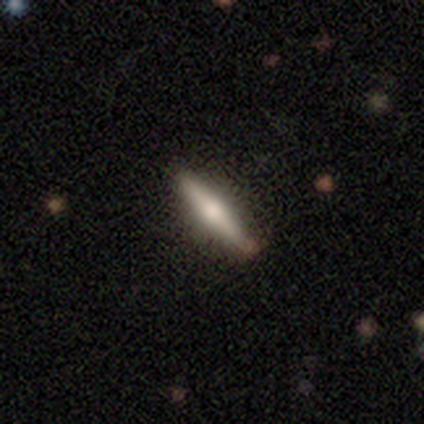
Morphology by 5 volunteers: A featured or disk galaxy (60%) viewed edge-on (100%) with a rounded central bulge (100%).

Vote fractions:
- Smooth or featured? featured or disk: 60% / smooth: 40% / star or artifact: 0%
- Edge-on disk? yes: 100% / no: 0%
- Edge-on bulge? rounded: 100% / boxy: 0% / none: 0%
- Merging? none: 100% / minor disturbance: 0% / major disturbance: 0% / merger: 0%